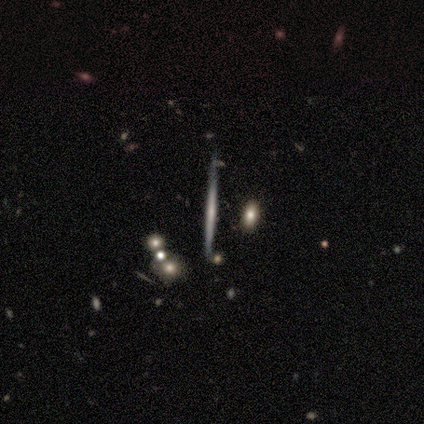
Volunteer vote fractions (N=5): A featured or disk galaxy (60%) viewed edge-on (100%) with no central bulge (67%).

Vote fractions:
- Smooth or featured? featured or disk: 60% / smooth: 20% / star or artifact: 20%
- Edge-on disk? yes: 100% / no: 0%
- Edge-on bulge? none: 67% / rounded: 33% / boxy: 0%
- Merging? none: 100% / minor disturbance: 0% / major disturbance: 0% / merger: 0%